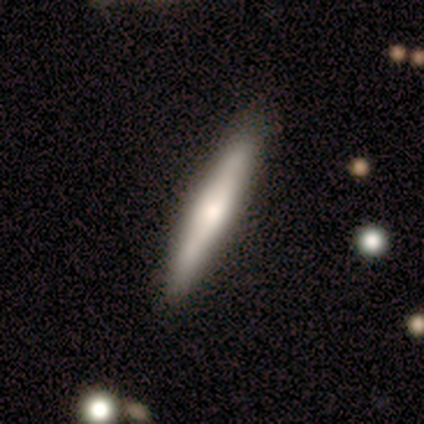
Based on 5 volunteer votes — Q: Smooth or featured?
A: smooth (60%); runner-up: featured or disk (40%)
Q: How rounded?
A: cigar-shaped (100%)
Q: Merging?
A: none (100%)